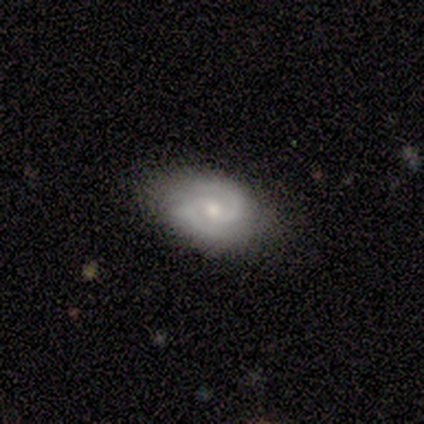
Smooth or featured: featured or disk — 60% (smooth — 40%)
Edge-on disk: no — 100%
Bar: weak — 100%
Spiral arms: yes — 100%
Spiral winding: medium — 67% (tight — 33%)
Spiral arm count: 2 — 100%
Bulge size: moderate — 67% (small — 33%)
Merging: none — 100%